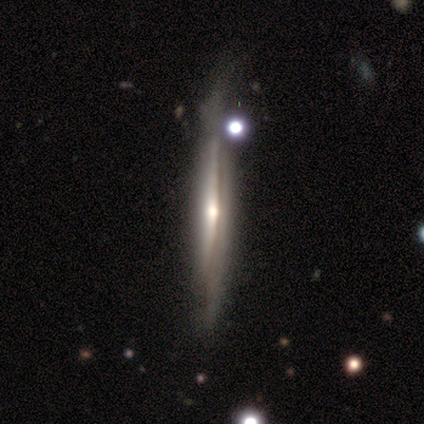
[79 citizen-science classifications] featured or disk 84%, smooth 14%, star or artifact 3%. Down the decision tree: edge-on disk — yes (89%); edge-on bulge — rounded (73%); merging — none (49%).